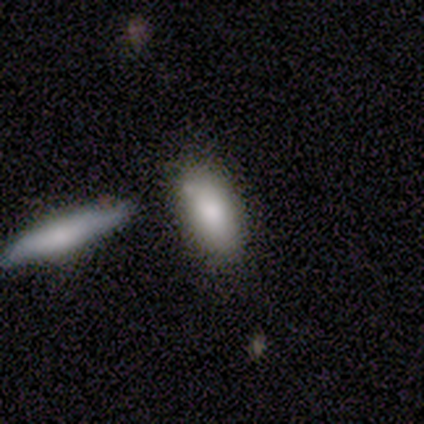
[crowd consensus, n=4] Smooth or featured: smooth — 100%
How rounded: in between — 75% (cigar-shaped — 25%)
Merging: none — 50% (minor disturbance — 25%)